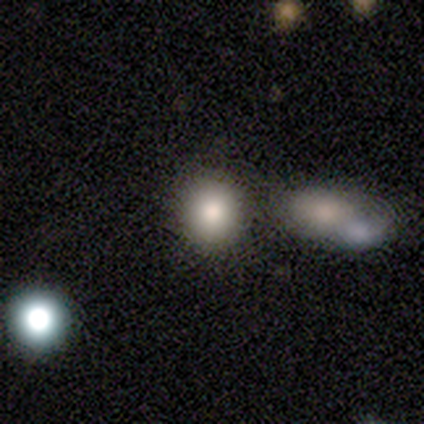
Smooth or featured? smooth (80%)
How rounded? round (100%)
Merging? none (60%)